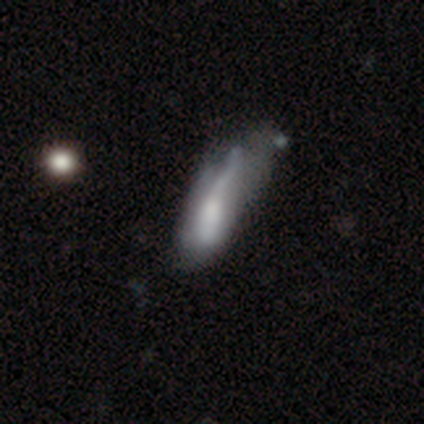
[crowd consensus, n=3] smooth-or-featured: smooth: 100% | featured or disk: 0% | star or artifact: 0%
  how-rounded: in between: 100% | round: 0% | cigar-shaped: 0%
  merging: major disturbance: 67% | minor disturbance: 33% | none: 0% | merger: 0%